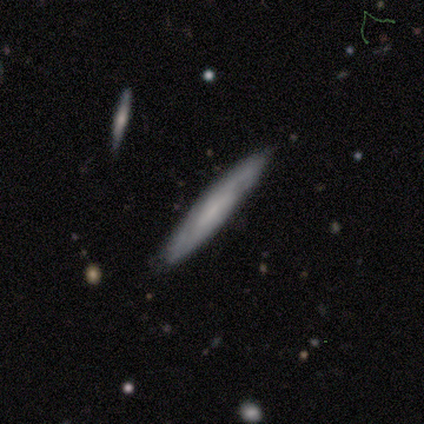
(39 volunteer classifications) Morphology: type=featured or disk (54%); edge-on=yes (67%); edge-on bulge=none (93%); merging=none (84%).